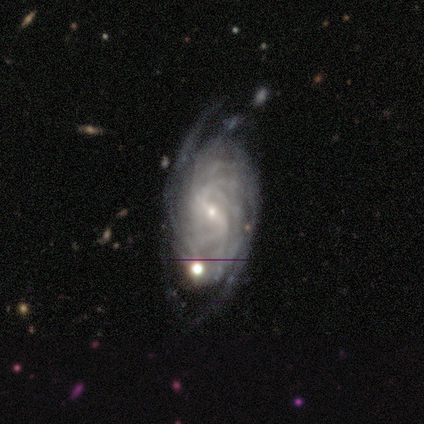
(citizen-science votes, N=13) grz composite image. It shows a featured or disk galaxy (92%) with a weak bar (36%, tied with no), more than 4 (55%) tight (64%) spiral arms (100%) and a small central bulge (100%). Merging: none (67%).